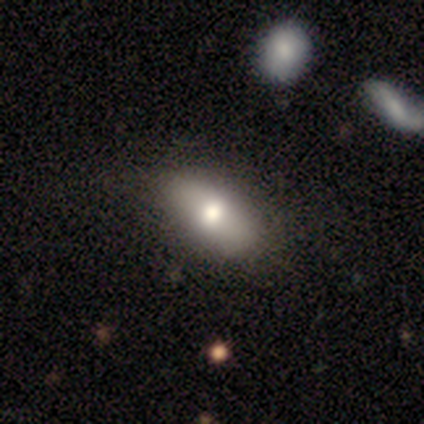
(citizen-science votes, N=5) Volunteers were most divided on "how rounded": in between: 80%, round: 20%, cigar-shaped: 0%. More confident: smooth or featured — smooth (100%); merging — none (80%).